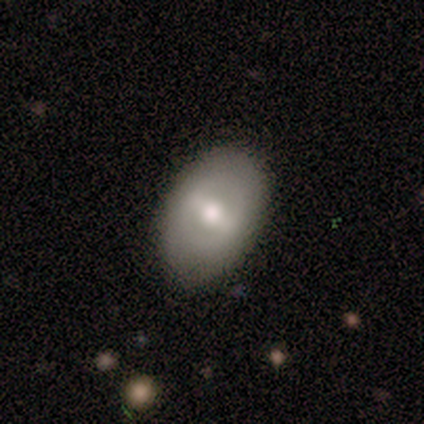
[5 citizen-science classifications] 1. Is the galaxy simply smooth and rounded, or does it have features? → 60% featured or disk, 20% smooth, 20% star or artifact.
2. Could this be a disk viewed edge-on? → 100% no, 0% yes.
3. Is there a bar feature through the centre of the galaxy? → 100% strong, 0% weak, 0% no.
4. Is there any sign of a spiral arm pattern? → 100% no, 0% yes.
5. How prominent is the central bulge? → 67% large, 33% moderate, 0% dominant, 0% small, 0% none.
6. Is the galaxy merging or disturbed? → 75% none, 25% minor disturbance, 0% major disturbance, 0% merger.